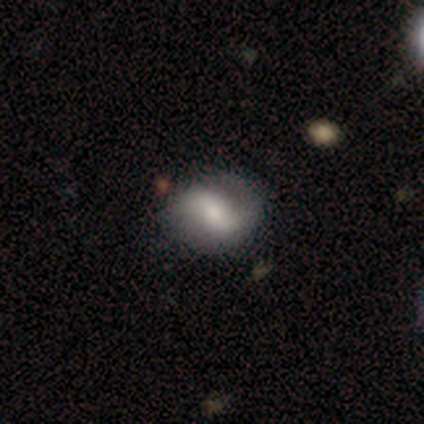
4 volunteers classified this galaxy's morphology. featured or disk 75%, smooth 25%, star or artifact 0%. Down the decision tree: edge-on disk — no (100%); bar — no (67%); spiral arms — yes (100%); spiral arm count — 2 (100%); spiral winding — loose (67%); bulge size — moderate (67%); merging — none (75%).